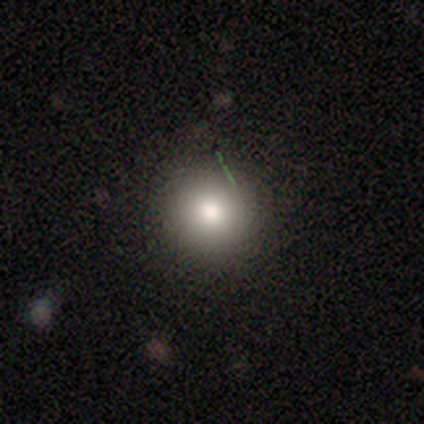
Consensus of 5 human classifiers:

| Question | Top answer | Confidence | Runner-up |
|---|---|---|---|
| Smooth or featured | smooth | 60% | featured or disk (40%) |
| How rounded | round | 100% | — |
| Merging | none | 80% | major disturbance (20%) |